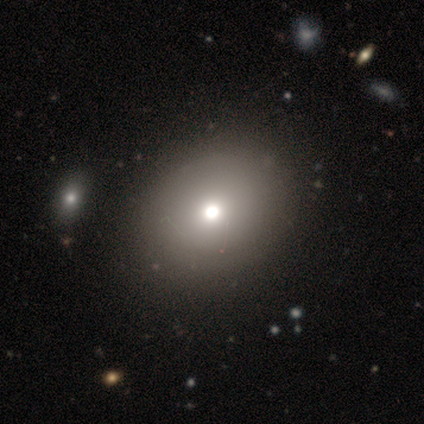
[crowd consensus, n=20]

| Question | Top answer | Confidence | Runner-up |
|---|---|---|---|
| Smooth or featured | smooth | 80% | featured or disk (20%) |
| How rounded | round | 50% | tied: in between (50%) |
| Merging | none | 20% | minor disturbance (15%) |